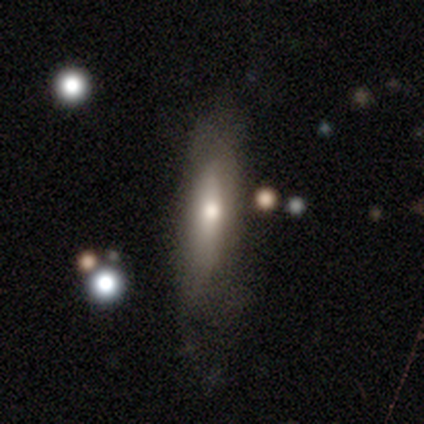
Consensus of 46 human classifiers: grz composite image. It shows a smooth galaxy with no disk features (59%) that is cigar-shaped (78%). Merging: none (66%).